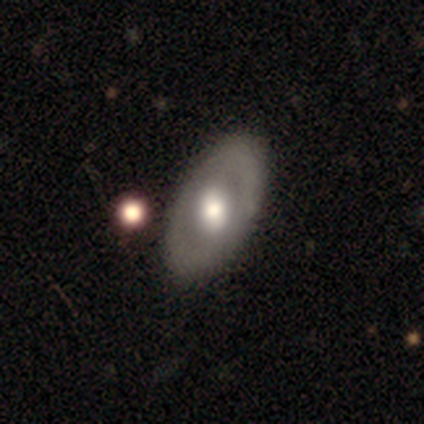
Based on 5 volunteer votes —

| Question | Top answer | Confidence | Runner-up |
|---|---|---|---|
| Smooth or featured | featured or disk | 60% | smooth (40%) |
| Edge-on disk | no | 100% | — |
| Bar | weak | 100% | — |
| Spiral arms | yes | 67% | no (33%) |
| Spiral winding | medium | 50% | tied: loose (50%) |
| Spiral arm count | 1 | 100% | — |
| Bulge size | large | 33% | tied: moderate (33%), small (33%) |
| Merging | none | 60% | minor disturbance (20%) |